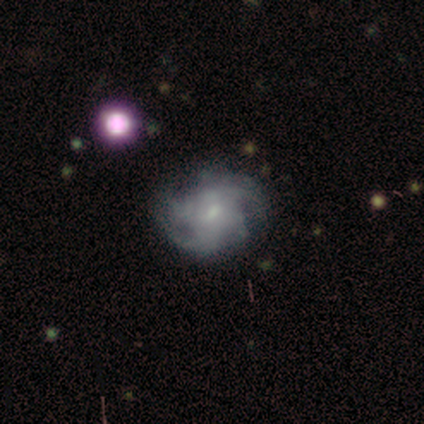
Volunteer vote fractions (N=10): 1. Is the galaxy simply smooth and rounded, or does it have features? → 100% featured or disk, 0% smooth, 0% star or artifact.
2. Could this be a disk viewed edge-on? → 90% no, 10% yes.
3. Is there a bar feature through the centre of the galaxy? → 56% weak, 33% no, 11% strong.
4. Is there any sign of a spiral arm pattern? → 100% yes, 0% no.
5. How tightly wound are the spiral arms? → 44% loose, 33% medium, 22% tight.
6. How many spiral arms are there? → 33% 4, 22% 2, 22% 3, 22% can't tell, 0% 1, 0% more than 4.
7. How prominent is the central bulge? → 78% small, 22% moderate, 0% dominant, 0% large, 0% none.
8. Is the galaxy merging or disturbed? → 70% none, 20% minor disturbance, 10% major disturbance, 0% merger.